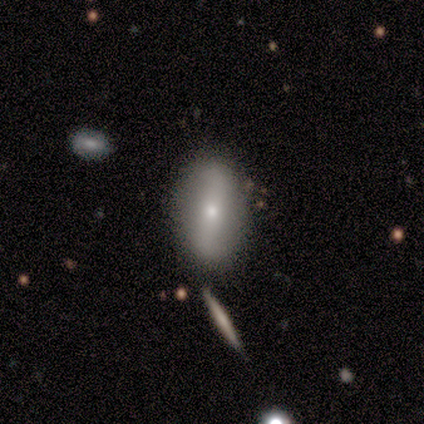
Morphology: type=smooth (40%, tied with featured or disk); roundness=in between (100%); merging=none (100%).